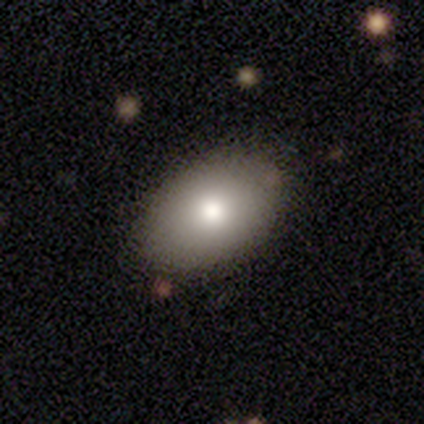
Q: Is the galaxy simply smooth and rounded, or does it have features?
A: smooth — 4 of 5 (80%).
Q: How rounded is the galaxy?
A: in between — 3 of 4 (75%).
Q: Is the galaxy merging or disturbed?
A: none — 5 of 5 (100%).